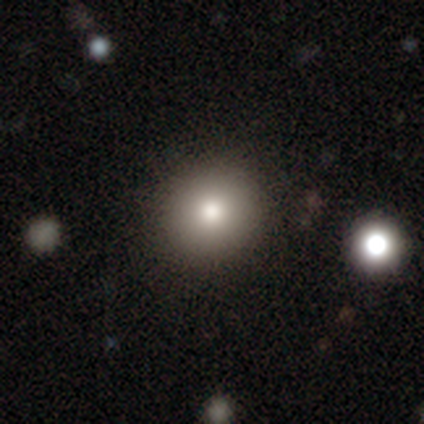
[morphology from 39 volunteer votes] A smooth galaxy with no disk features (77%) that is round (97%).

Vote fractions:
- Smooth or featured? smooth: 77% / featured or disk: 13% / star or artifact: 10%
- How rounded? round: 97% / in between: 3% / cigar-shaped: 0%
- Merging? none: 83% / minor disturbance: 9% / merger: 6% / major disturbance: 3%